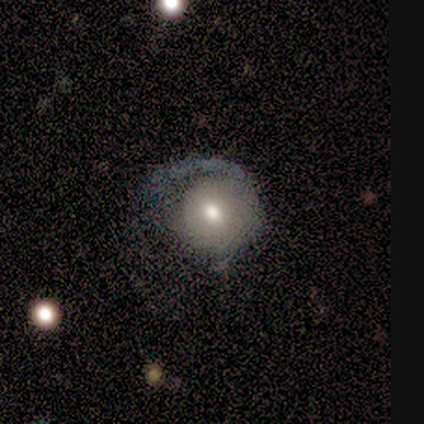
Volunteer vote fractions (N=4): This appears to be a smooth galaxy with no disk features (50%, tied with featured or disk) that is round (100%). Merging: major disturbance (50%).